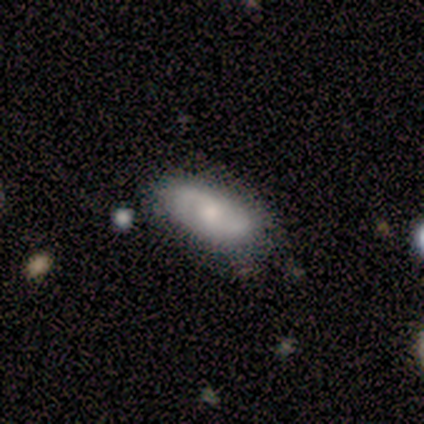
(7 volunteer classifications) This is likely a featured or disk galaxy (71%). It is clearly not viewed edge-on (100%). Bar: clearly no (80%). Spiral arm pattern: clearly yes (100%). Spiral arm count: clearly 2 (100%). Spiral winding: likely loose (60%). Central bulge: clearly small (100%). Merging: likely none (67%).